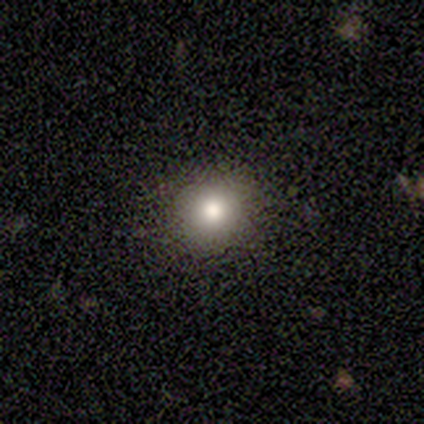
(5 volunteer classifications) Q: Smooth or featured?
A: smooth (100%)
Q: How rounded?
A: round (100%)
Q: Merging?
A: none (100%)